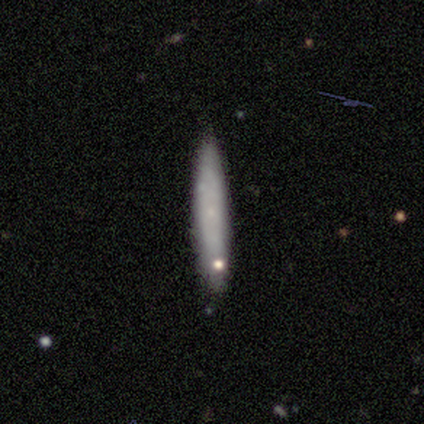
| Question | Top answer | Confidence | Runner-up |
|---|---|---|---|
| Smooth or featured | featured or disk | 60% | smooth (40%) |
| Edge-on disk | no | 67% | yes (33%) |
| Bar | no | 100% | — |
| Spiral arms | no | 100% | — |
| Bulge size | small | 50% | tied: none (50%) |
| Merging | none | 80% | minor disturbance (20%) |